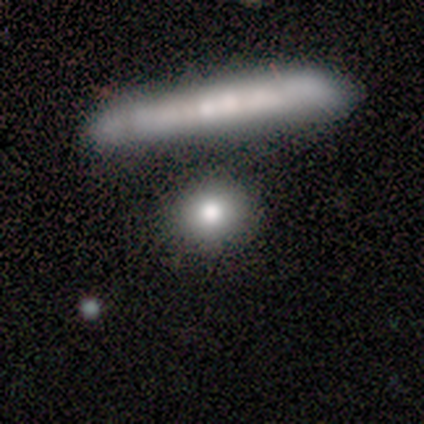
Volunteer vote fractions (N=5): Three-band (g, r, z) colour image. It shows a smooth galaxy with no disk features (40%, tied with featured or disk) that is round (100%). Merging: none (100%).